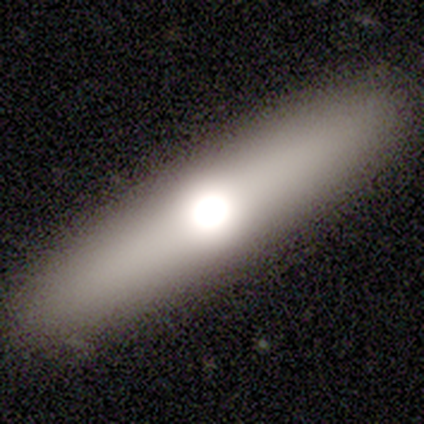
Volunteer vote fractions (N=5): This is likely a smooth galaxy (60%). How rounded: likely cigar-shaped (67%). Merging: clearly none (80%).